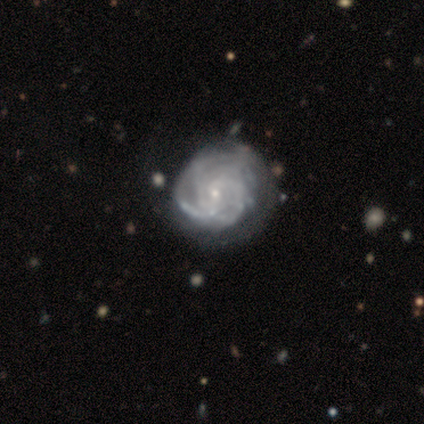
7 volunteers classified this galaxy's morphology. Overall: featured or disk (100%). Edge-on disk: no (100%). Bar: weak (71%). Spiral arms: yes (86%). Spiral arm count: 4 (50%; 2 17%). Spiral winding: medium (67%; tight 33%). Bulge size: small (86%). Merging: none (71%).